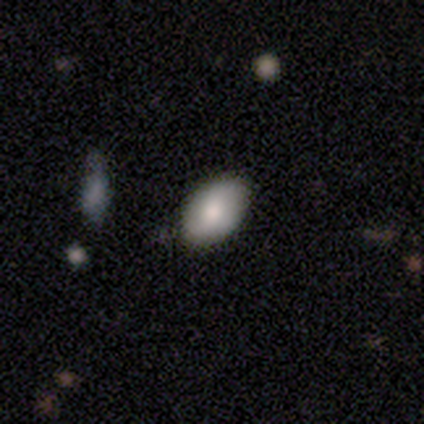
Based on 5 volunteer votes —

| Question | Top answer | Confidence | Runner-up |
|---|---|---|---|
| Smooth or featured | smooth | 60% | featured or disk (20%) |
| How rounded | in between | 100% | — |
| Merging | none | 100% | — |